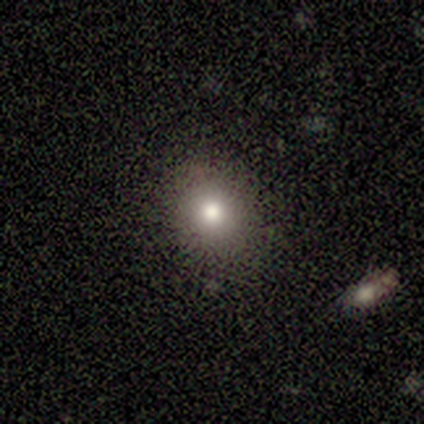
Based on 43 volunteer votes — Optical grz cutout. It shows a smooth galaxy with no disk features (74%) that is round (84%). Merging: none (86%).